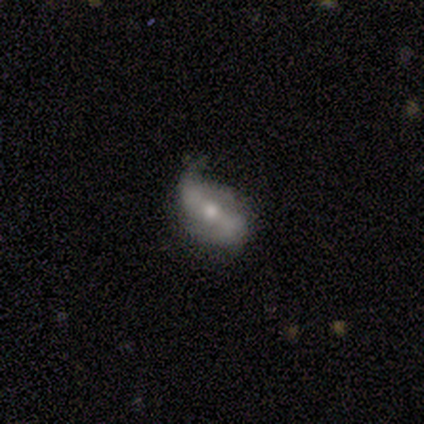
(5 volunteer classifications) A featured or disk galaxy (100%) with a strong bar (50%), 2 (67%) tight (33%, tied with medium and loose) spiral arms (75%) and a moderate central bulge (100%).

Vote fractions:
- Smooth or featured? featured or disk: 100% / smooth: 0% / star or artifact: 0%
- Edge-on disk? no: 80% / yes: 20%
- Bar? strong: 50% / weak: 25% / no: 25%
- Spiral arms? yes: 75% / no: 25%
- Spiral winding? tight: 33% (tied) / medium: 33% (tied) / loose: 33% (tied)
- Spiral arm count? 2: 67% / can't tell: 33% / 1: 0% / 3: 0% / 4: 0% / more than 4: 0%
- Bulge size? moderate: 100% / dominant: 0% / large: 0% / small: 0% / none: 0%
- Merging? none: 60% / minor disturbance: 40% / major disturbance: 0% / merger: 0%